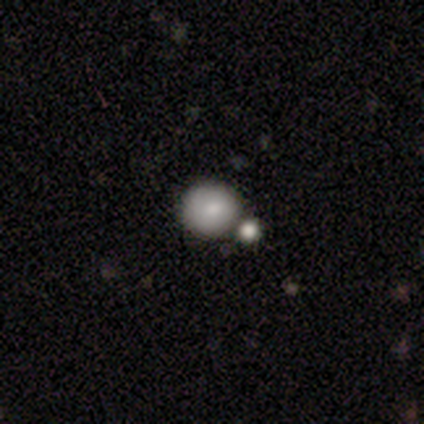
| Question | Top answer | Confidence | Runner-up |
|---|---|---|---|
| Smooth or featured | featured or disk | 60% | smooth (40%) |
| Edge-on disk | no | 100% | — |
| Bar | no | 67% | weak (33%) |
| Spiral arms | no | 67% | yes (33%) |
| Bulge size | small | 67% | none (33%) |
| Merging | none | 60% | merger (40%) |